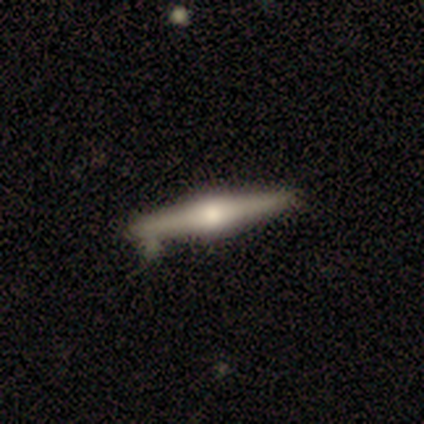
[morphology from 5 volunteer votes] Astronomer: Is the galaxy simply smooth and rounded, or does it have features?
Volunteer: smooth — 40%, tied with featured or disk at 40%.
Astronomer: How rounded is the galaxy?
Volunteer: cigar-shaped — 100%.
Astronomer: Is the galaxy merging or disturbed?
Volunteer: none — 75%.